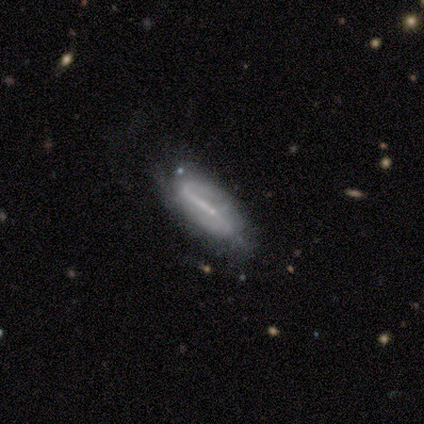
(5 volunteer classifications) Q: Smooth or featured?
A: featured or disk (80%); runner-up: smooth (20%)
Q: Edge-on disk?
A: yes (50%); tied with: no (50%)
Q: Edge-on bulge?
A: none (100%)
Q: Merging?
A: minor disturbance (60%); runner-up: none (20%)